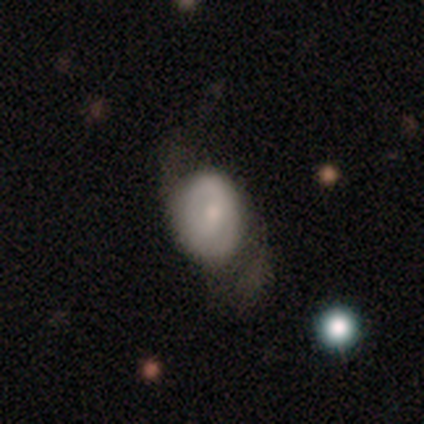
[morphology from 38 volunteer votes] smooth 50%, featured or disk 45%, star or artifact 5%. Down the decision tree: how rounded — round (47%, tied with in between); merging — major disturbance (44%).